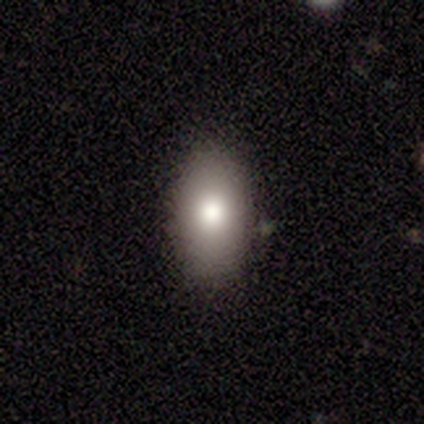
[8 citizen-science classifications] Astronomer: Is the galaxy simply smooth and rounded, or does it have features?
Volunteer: smooth — 75%.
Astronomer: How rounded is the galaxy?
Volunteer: in between — 100%.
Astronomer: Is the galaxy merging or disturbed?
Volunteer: none — 88%.